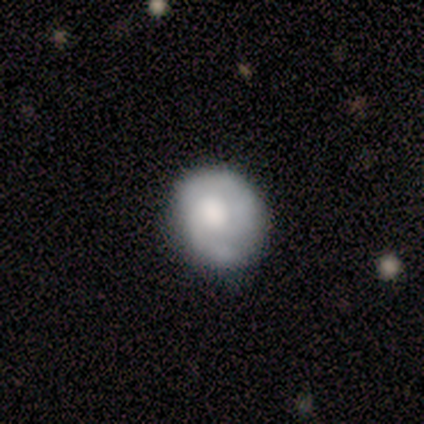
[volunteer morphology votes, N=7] type=featured or disk (57%); edge-on=no (100%); bar=no (100%); spiral arms=yes (75%); winding=tight (67%); arm count=2 (67%); bulge=moderate (75%); merging=none (57%).